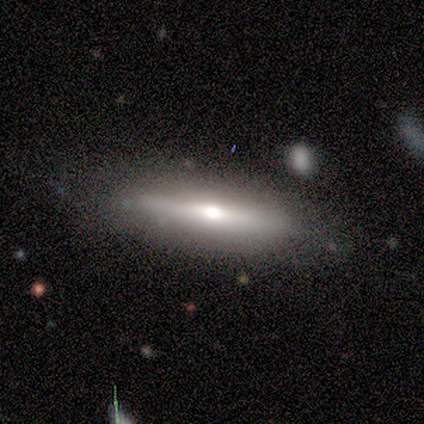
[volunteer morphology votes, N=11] Q: Smooth or featured?
A: featured or disk (64%); runner-up: smooth (36%)
Q: Edge-on disk?
A: yes (100%)
Q: Edge-on bulge?
A: rounded (86%); runner-up: none (14%)
Q: Merging?
A: none (73%); runner-up: minor disturbance (18%)